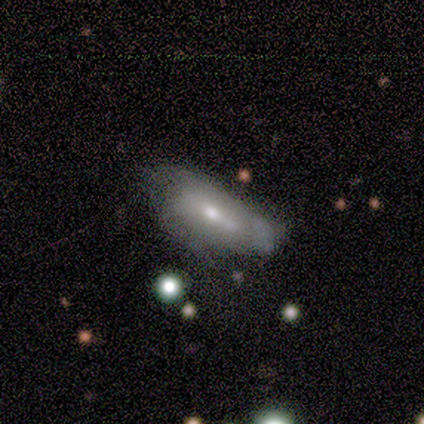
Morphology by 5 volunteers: This appears to be a smooth galaxy with no disk features (60%) that is in between round and cigar-shaped (100%). Merging: none (60%).